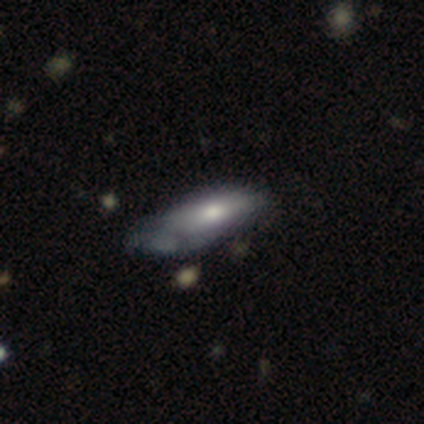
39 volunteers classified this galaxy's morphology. smooth-or-featured: smooth: 64% | featured or disk: 31% | star or artifact: 5%
  how-rounded: in between: 68% | cigar-shaped: 28% | round: 4%
  merging: none: 41% | minor disturbance: 35% | major disturbance: 19% | merger: 5%